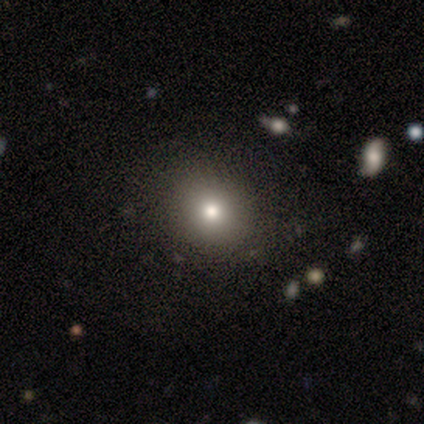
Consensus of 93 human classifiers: This is likely a smooth galaxy (73%). How rounded: likely round (71%). Merging: clearly none (81%).